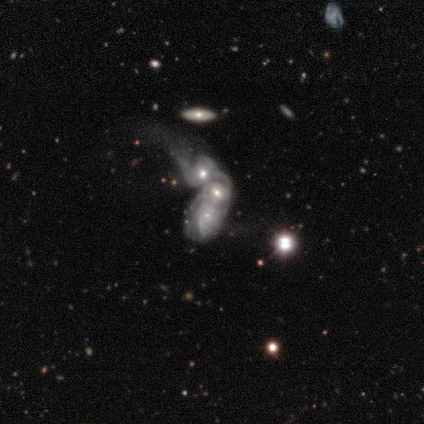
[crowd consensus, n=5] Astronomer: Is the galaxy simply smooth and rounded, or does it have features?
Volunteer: featured or disk — 80%.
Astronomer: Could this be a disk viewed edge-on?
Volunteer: no — 100%.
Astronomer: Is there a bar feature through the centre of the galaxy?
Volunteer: weak — 50%, tied with no at 50%.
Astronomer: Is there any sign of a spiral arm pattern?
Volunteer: yes — 75%.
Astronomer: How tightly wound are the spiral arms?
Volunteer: medium — 67%.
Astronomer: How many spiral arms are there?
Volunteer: can't tell — 100%.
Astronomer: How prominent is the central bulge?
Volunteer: moderate — 75%.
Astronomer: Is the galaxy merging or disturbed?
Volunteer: merger — 100%.